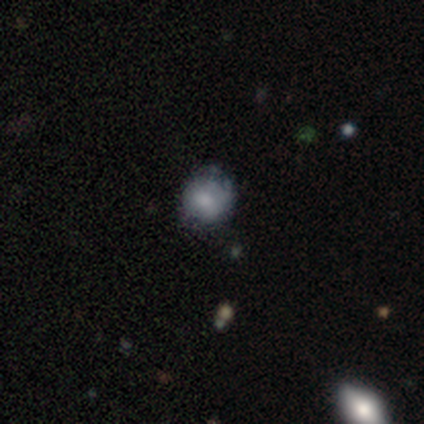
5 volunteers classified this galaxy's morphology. Q: Smooth or featured?
A: featured or disk (60%); runner-up: smooth (40%)
Q: Edge-on disk?
A: no (100%)
Q: Bar?
A: no (100%)
Q: Spiral arms?
A: no (100%)
Q: Bulge size?
A: none (67%); runner-up: moderate (33%)
Q: Merging?
A: none (60%); runner-up: minor disturbance (40%)